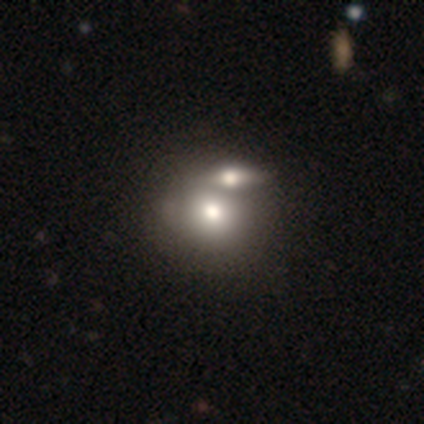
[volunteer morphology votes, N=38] Q: Smooth or featured?
A: smooth (79%); runner-up: featured or disk (16%)
Q: How rounded?
A: round (53%); runner-up: in between (47%)
Q: Merging?
A: merger (67%); runner-up: none (22%)